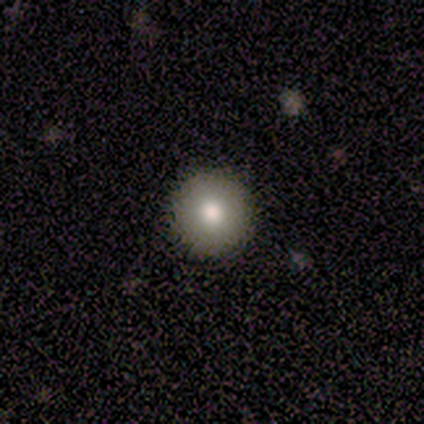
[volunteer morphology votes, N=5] Smooth or featured? 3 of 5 (60%) said smooth. How rounded? 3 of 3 (100%) said round. Merging? 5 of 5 (100%) said none.